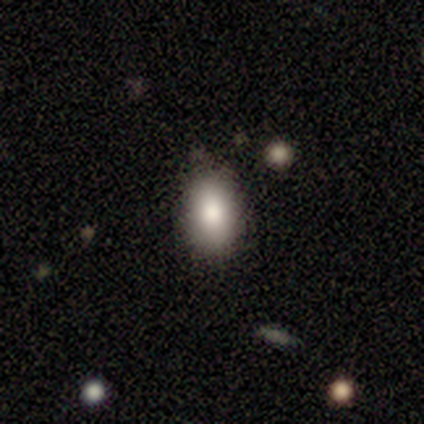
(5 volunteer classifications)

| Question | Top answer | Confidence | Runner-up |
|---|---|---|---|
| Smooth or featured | smooth | 80% | star or artifact (20%) |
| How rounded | in between | 100% | — |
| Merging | none | 100% | — |